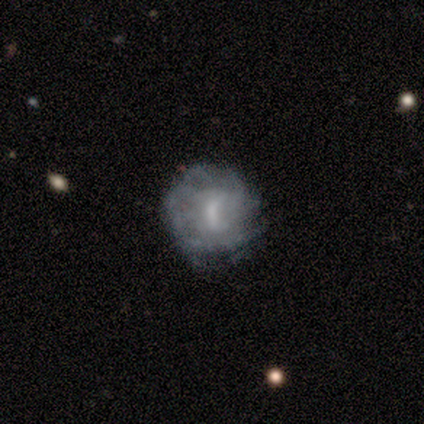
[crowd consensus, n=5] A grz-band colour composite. It shows a featured or disk galaxy (100%) with a weak bar (40%, tied with no), more than 4 (67%) tight (67%) spiral arms (60%) and a moderate central bulge (40%, tied with small). Merging: none (100%).